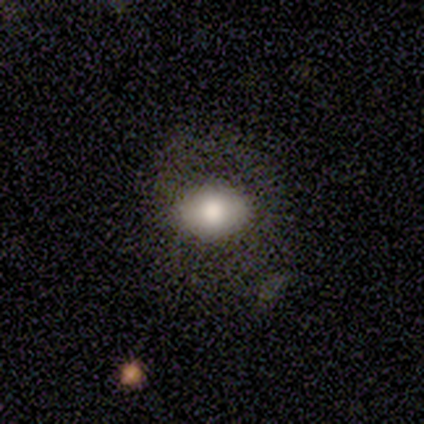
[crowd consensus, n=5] This is clearly a smooth galaxy (100%). How rounded: clearly in between (100%). Merging: likely none (60%).